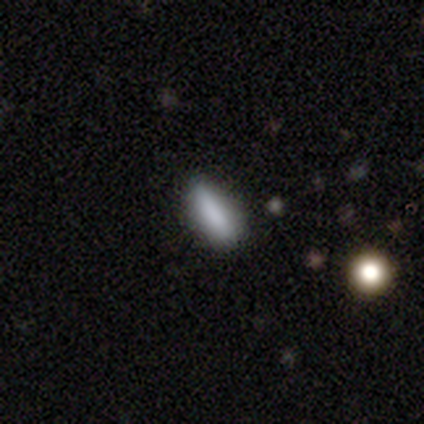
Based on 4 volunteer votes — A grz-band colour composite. It shows a smooth galaxy with no disk features (75%) that is in between round and cigar-shaped (100%). Merging: none (100%).